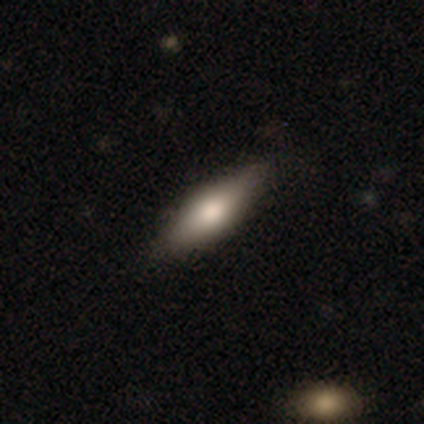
smooth 75%, featured or disk 19%, star or artifact 6%. Down the decision tree: how rounded — cigar-shaped (63%); merging — none (100%).